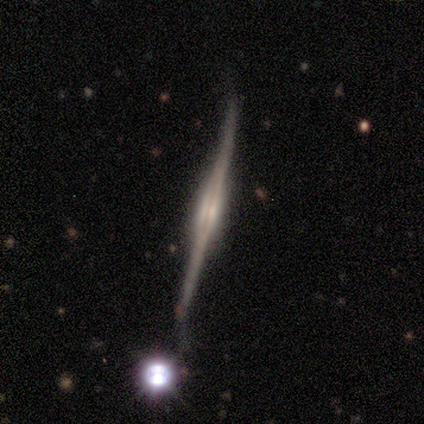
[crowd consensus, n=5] smooth_or_featured: featured or disk (p=1.00)
disk_edge_on: yes (p=1.00)
edge_on_bulge: boxy (p=0.60) [alt: none p=0.20]
merging: none (p=0.80) [alt: merger p=0.20]